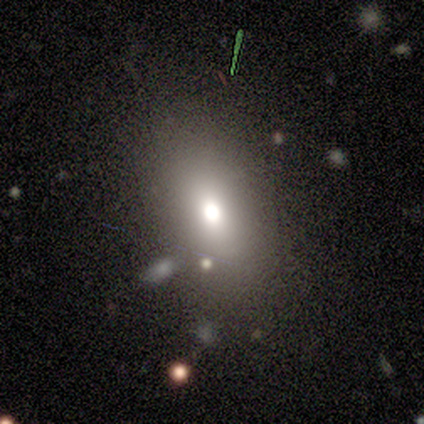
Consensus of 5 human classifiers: Smooth or featured: smooth — 60% (star or artifact — 40%)
How rounded: in between — 100%
Merging: none — 100%